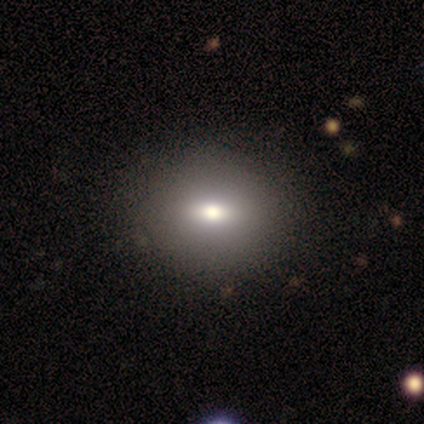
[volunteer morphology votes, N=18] smooth 94%, star or artifact 6%, featured or disk 0%. Down the decision tree: how rounded — in between (53%); merging — none (76%).